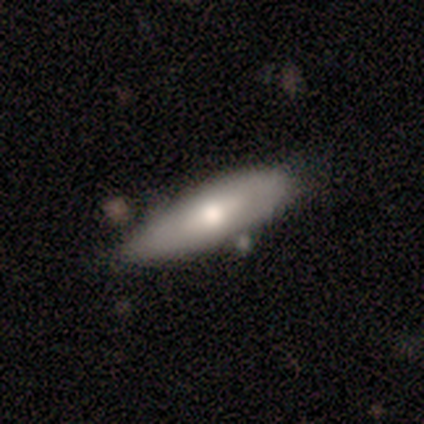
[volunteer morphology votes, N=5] smooth 80%, featured or disk 20%, star or artifact 0%. Down the decision tree: how rounded — in between (75%); merging — none (60%).